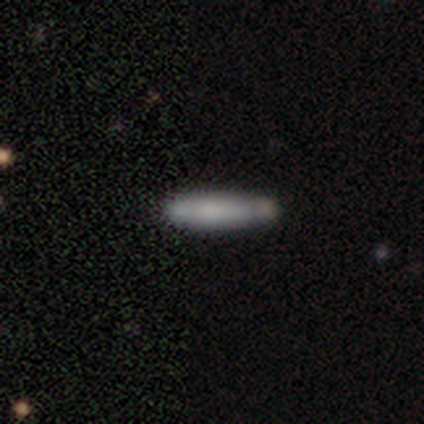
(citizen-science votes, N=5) Q: Smooth or featured?
A: smooth (80%); runner-up: featured or disk (20%)
Q: How rounded?
A: cigar-shaped (75%); runner-up: in between (25%)
Q: Merging?
A: none (80%); runner-up: minor disturbance (20%)